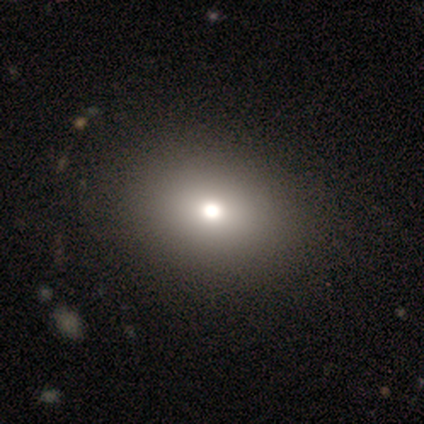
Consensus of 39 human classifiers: Morphology: type=smooth (74%); roundness=in between (72%); merging=none (58%).